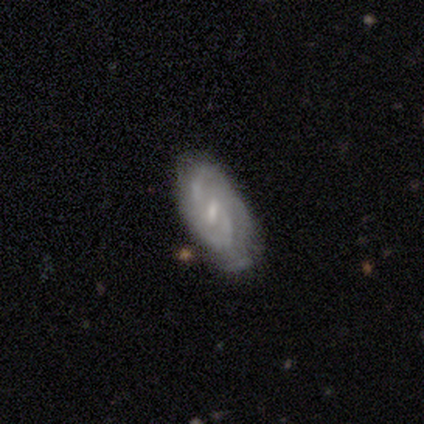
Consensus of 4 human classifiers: Smooth or featured? featured or disk (100%)
Edge-on disk? no (100%)
Bar? weak (75%)
Spiral arms? yes (75%)
Spiral winding? medium (100%)
Spiral arm count? 2 (67%)
Bulge size? small (100%)
Merging? none (100%)